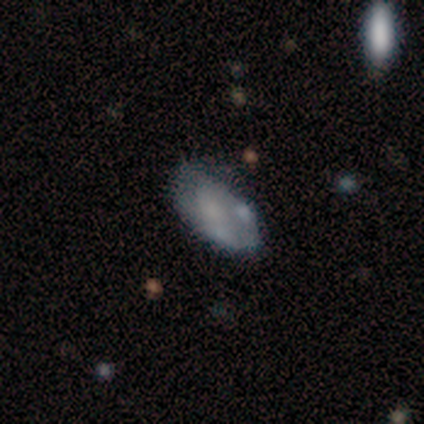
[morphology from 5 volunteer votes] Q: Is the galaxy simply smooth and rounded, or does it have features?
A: smooth — 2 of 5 (40%, tied with featured or disk).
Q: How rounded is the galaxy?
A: in between — 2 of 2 (100%).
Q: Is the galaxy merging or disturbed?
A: none — 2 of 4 (50%).